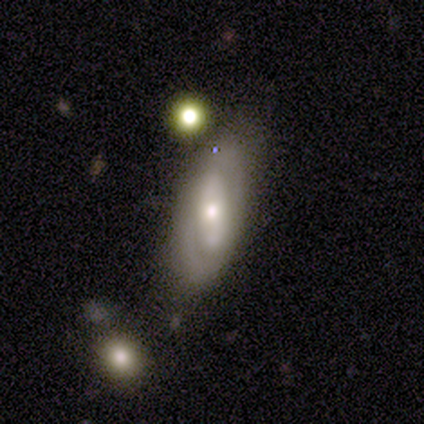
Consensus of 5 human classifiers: This appears to be a smooth galaxy with no disk features (40%, tied with featured or disk) that is in between round and cigar-shaped (100%). Merging: none (75%).